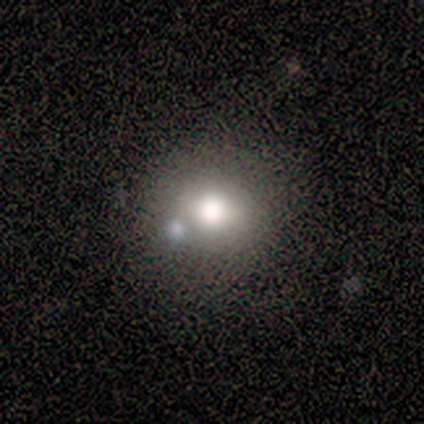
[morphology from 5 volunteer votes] smooth 80%, star or artifact 20%, featured or disk 0%. Down the decision tree: how rounded — round (100%); merging — none (75%).